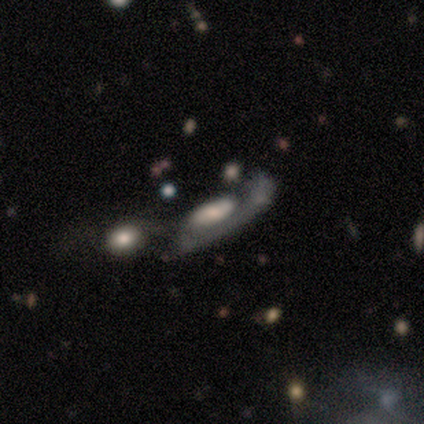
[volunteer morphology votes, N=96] smooth_or_featured: featured or disk (p=0.67) [alt: smooth p=0.28]
disk_edge_on: no (p=0.88) [alt: yes p=0.12]
bar: no (p=0.73) [alt: weak p=0.20]
has_spiral_arms: yes (p=0.66) [alt: no p=0.34]
spiral_winding: tight (p=0.35) [tied with: medium p=0.35]
spiral_arm_count: 1 (p=0.73) [alt: can't tell p=0.24]
bulge_size: moderate (p=0.39) [alt: large p=0.36]
merging: major disturbance (p=0.38) [alt: merger p=0.37]